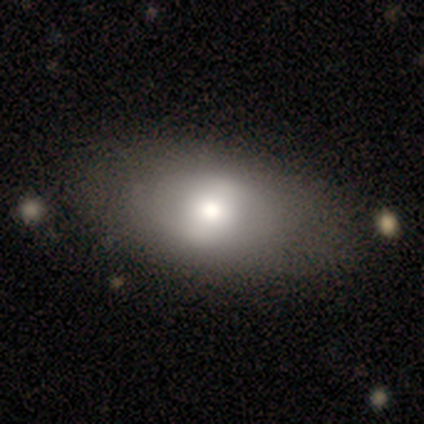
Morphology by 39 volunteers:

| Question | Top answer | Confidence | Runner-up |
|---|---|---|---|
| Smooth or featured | smooth | 64% | featured or disk (31%) |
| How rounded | in between | 84% | round (12%) |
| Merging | none | 62% | minor disturbance (3%) |